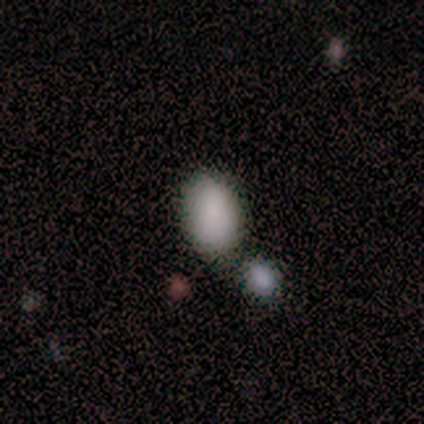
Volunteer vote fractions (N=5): A smooth galaxy with no disk features (100%) that is in between round and cigar-shaped (80%).

Vote fractions:
- Smooth or featured? smooth: 100% / featured or disk: 0% / star or artifact: 0%
- How rounded? in between: 80% / round: 20% / cigar-shaped: 0%
- Merging? none: 60% / merger: 40% / minor disturbance: 0% / major disturbance: 0%